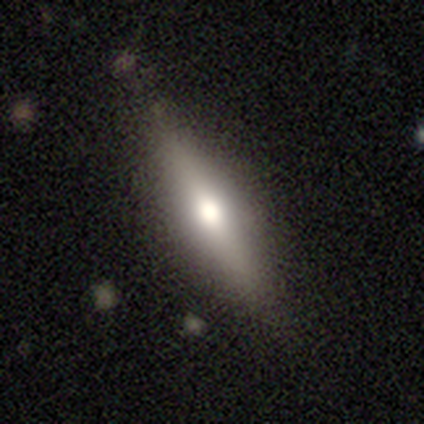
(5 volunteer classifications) Smooth or featured?
  - featured or disk: 80% *
  - star or artifact: 20%
  - smooth: 0%
Edge-on disk?
  - yes: 100% *
  - no: 0%
Edge-on bulge?
  - rounded: 100% *
  - boxy: 0%
  - none: 0%
Merging?
  - none: 75% *
  - minor disturbance: 25%
  - major disturbance: 0%
  - merger: 0%